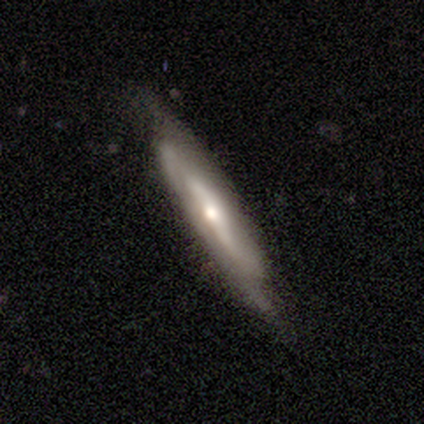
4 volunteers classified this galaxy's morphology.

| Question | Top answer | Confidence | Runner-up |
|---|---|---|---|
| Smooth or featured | featured or disk | 100% | — |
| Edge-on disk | yes | 50% | tied: no (50%) |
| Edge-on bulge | rounded | 100% | — |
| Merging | none | 50% | major disturbance (25%) |